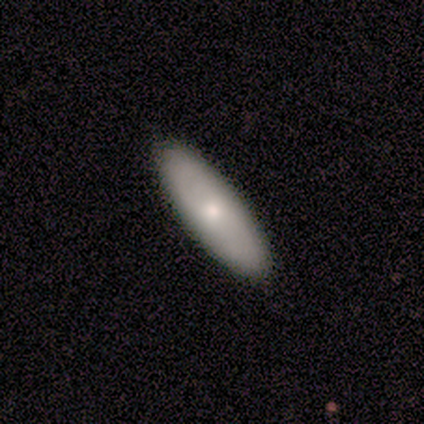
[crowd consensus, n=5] smooth_or_featured: smooth (p=0.60) [alt: featured or disk p=0.40]
how_rounded: cigar-shaped (p=0.67) [alt: in between p=0.33]
merging: none (p=1.00)